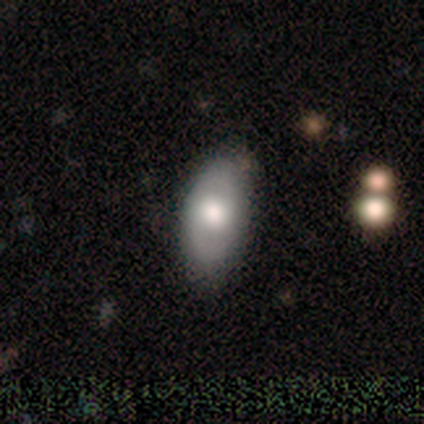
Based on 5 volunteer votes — A smooth galaxy with no disk features (60%) that is in between round and cigar-shaped (100%).

Vote fractions:
- Smooth or featured? smooth: 60% / featured or disk: 40% / star or artifact: 0%
- How rounded? in between: 100% / round: 0% / cigar-shaped: 0%
- Merging? none: 80% / merger: 20% / minor disturbance: 0% / major disturbance: 0%